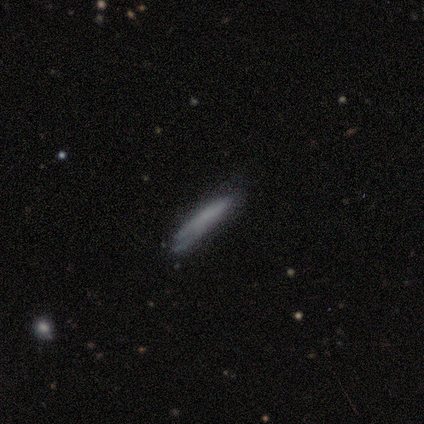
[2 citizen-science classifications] Morphology: type=smooth (50%, tied with featured or disk); roundness=cigar-shaped (100%); merging=minor disturbance (100%).